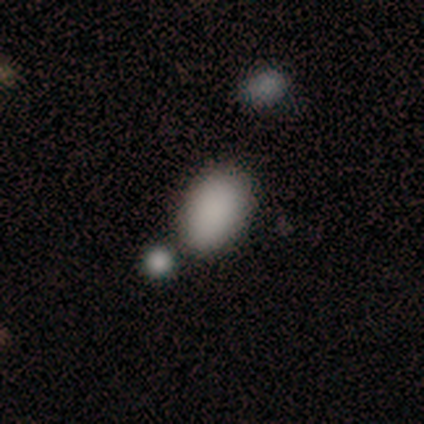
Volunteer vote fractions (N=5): A smooth galaxy with no disk features (100%) that is in between round and cigar-shaped (80%). Merging: none (40%, tied with minor disturbance).